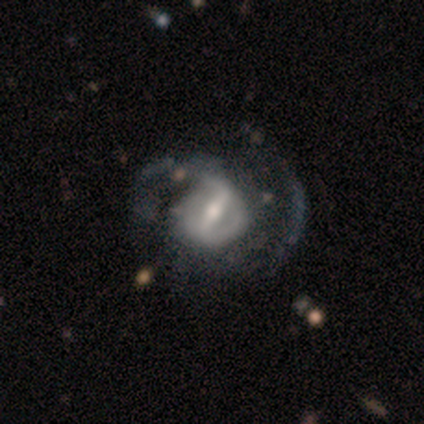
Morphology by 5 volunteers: Smooth or featured: featured or disk — 60% (smooth — 20%)
Edge-on disk: no — 100%
Bar: strong — 67% (weak — 33%)
Spiral arms: yes — 100%
Spiral winding: loose — 67% (medium — 33%)
Spiral arm count: 2 — 100%
Bulge size: moderate — 67% (large — 33%)
Merging: none — 50% (tied with minor disturbance — 50%)